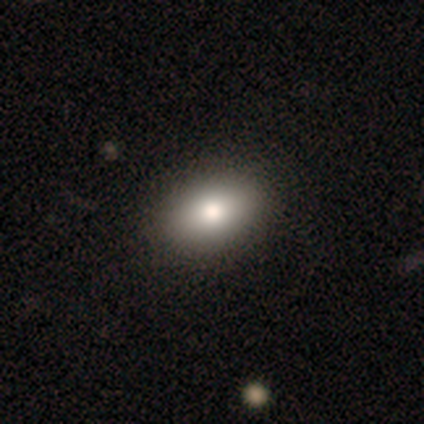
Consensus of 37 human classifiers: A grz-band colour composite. It shows a smooth galaxy with no disk features (86%) that is in between round and cigar-shaped (94%). Merging: none (74%).